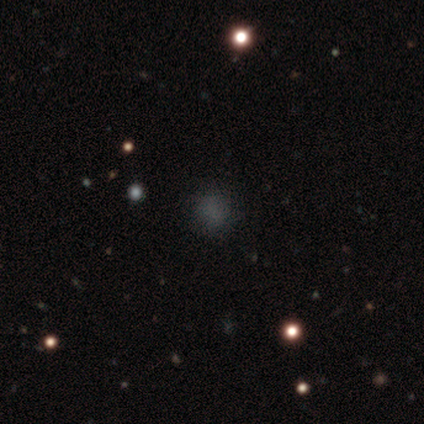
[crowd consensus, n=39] Smooth or featured?
  - smooth: 54% *
  - star or artifact: 38%
  - featured or disk: 8%
How rounded?
  - round: 67% *
  - in between: 29%
  - cigar-shaped: 5%
Merging?
  - none: 67% *
  - minor disturbance: 12%
  - major disturbance: 12%
  - merger: 8%